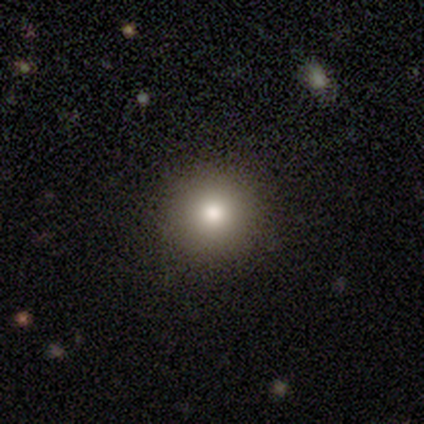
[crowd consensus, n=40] Smooth or featured? 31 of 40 (78%) said smooth. How rounded? 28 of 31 (90%) said round. Merging? 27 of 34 (79%) said none.